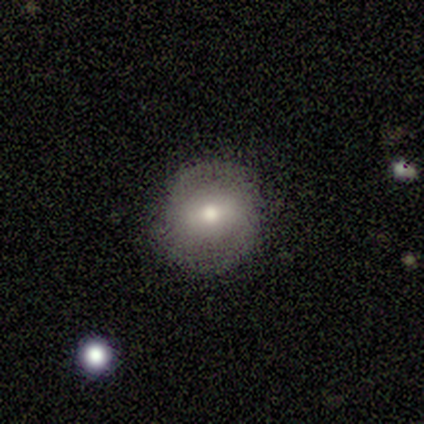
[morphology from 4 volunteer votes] smooth_or_featured: featured or disk (p=0.50) [alt: smooth p=0.25]
disk_edge_on: no (p=1.00)
bar: weak (p=1.00)
has_spiral_arms: yes (p=1.00)
spiral_winding: tight (p=1.00)
spiral_arm_count: 2 (p=1.00)
bulge_size: large (p=0.50) [tied with: moderate p=0.50]
merging: none (p=1.00)